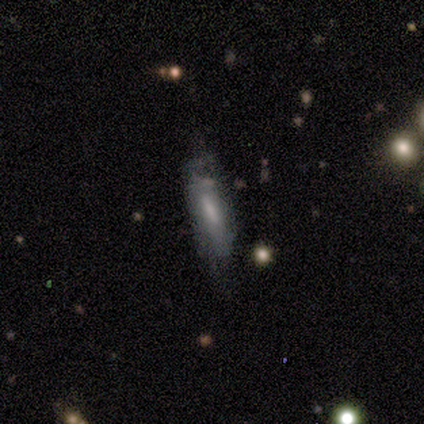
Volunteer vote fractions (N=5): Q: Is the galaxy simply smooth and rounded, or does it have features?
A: smooth — 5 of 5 (100%).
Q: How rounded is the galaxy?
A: cigar-shaped — 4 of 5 (80%).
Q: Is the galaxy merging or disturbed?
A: none — 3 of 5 (60%).